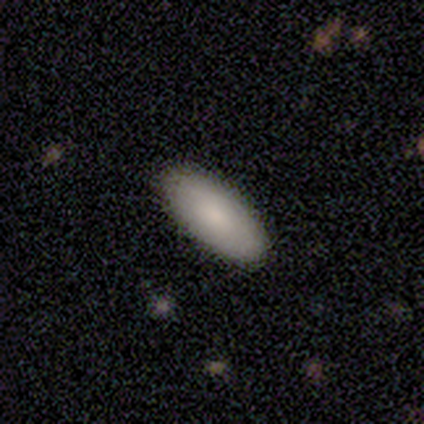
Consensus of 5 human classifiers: smooth 80%, featured or disk 20%, star or artifact 0%. Down the decision tree: how rounded — in between (100%); merging — minor disturbance (80%).